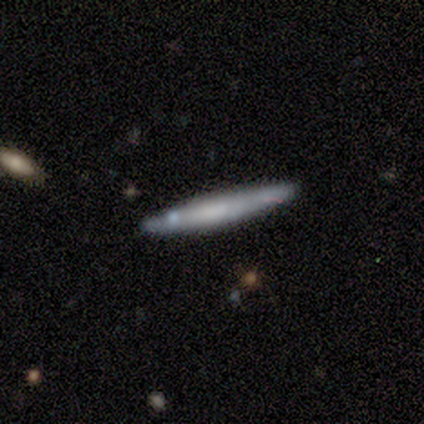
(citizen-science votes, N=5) A smooth galaxy with no disk features (80%) that is cigar-shaped (100%). Merging: none (80%).